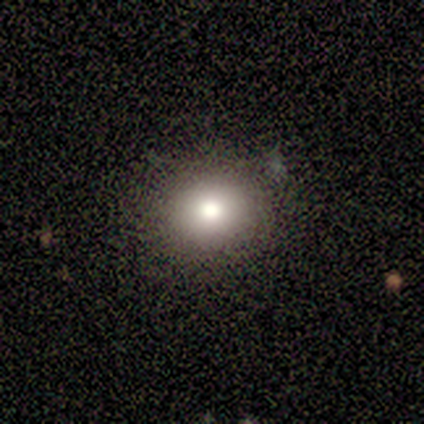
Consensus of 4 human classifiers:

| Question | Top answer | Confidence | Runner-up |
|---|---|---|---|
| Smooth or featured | smooth | 100% | — |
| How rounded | round | 75% | in between (25%) |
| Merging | none | 100% | — |